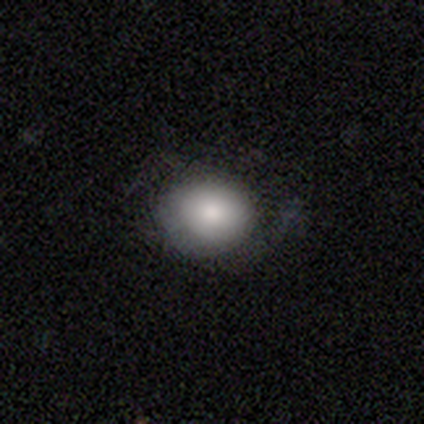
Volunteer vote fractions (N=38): This appears to be a smooth galaxy with no disk features (76%) that is round (72%). Merging: none (61%).